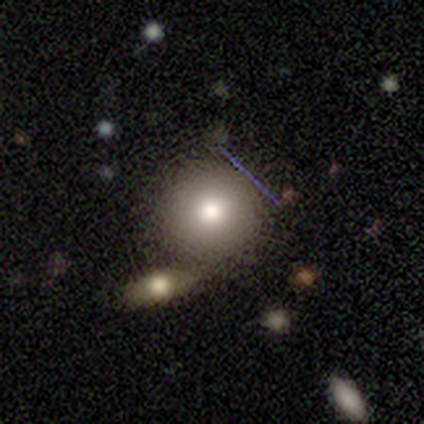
smooth 80%, star or artifact 20%, featured or disk 0%. Down the decision tree: how rounded — round (100%); merging — none (100%).